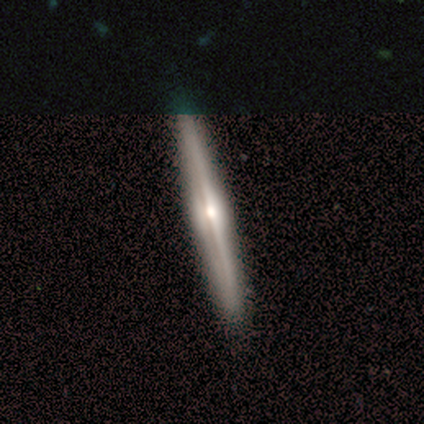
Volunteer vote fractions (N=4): featured or disk 100%, smooth 0%, star or artifact 0%. Down the decision tree: edge-on disk — yes (100%); edge-on bulge — rounded (75%); merging — none (75%).